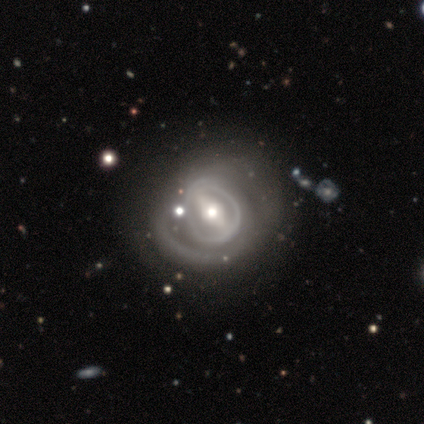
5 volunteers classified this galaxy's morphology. type=star or artifact (60%).